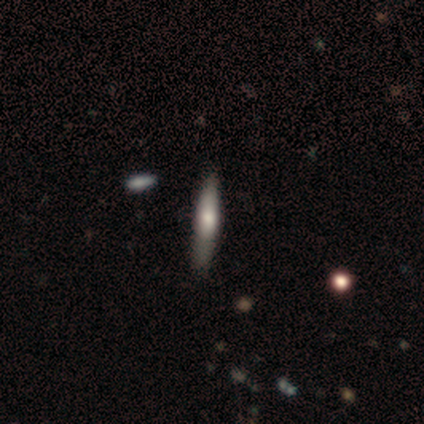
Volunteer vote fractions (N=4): This is likely a featured or disk galaxy (75%). It is clearly viewed edge-on (100%). Edge-on bulge: likely rounded (67%). Merging: possibly none (50%, tied with minor disturbance).